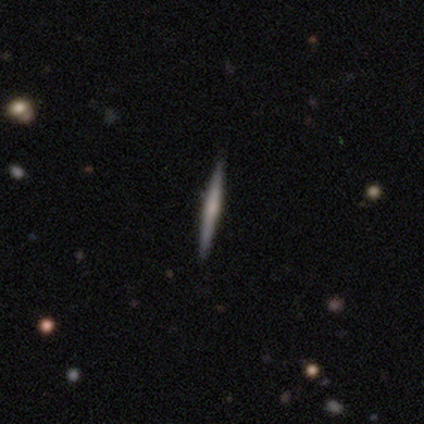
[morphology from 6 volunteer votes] This is likely a featured or disk galaxy (67%). It is clearly viewed edge-on (100%). Edge-on bulge: likely rounded (75%). Merging: clearly none (100%).